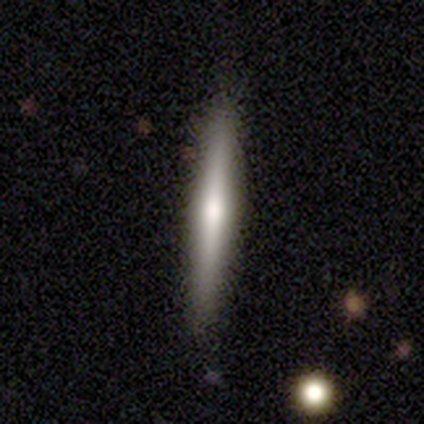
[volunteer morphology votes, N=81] smooth-or-featured: featured or disk: 72% | smooth: 25% | star or artifact: 4%
  disk-edge-on: yes: 100% | no: 0%
    edge-on-bulge: rounded: 78% | none: 14% | boxy: 9%
  merging: none: 94% | minor disturbance: 4% | major disturbance: 1% | merger: 1%